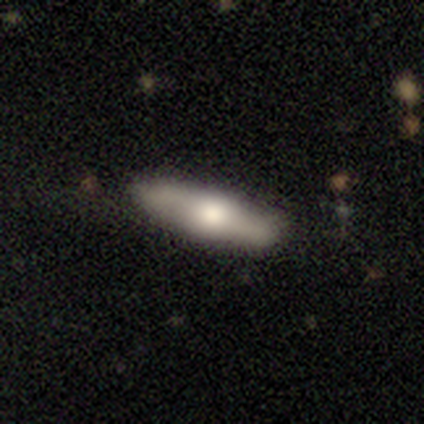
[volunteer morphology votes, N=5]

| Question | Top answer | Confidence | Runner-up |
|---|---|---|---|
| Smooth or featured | featured or disk | 60% | smooth (40%) |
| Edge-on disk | yes | 100% | — |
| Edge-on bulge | rounded | 100% | — |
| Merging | none | 100% | — |